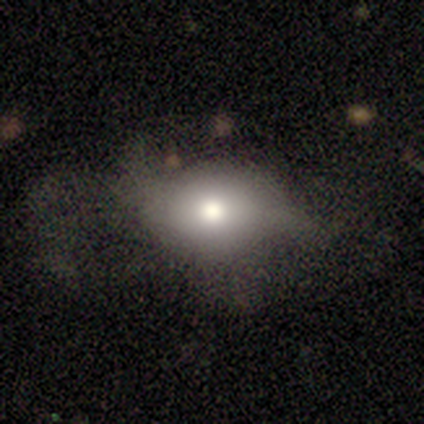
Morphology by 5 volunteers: smooth_or_featured: smooth (p=1.00)
how_rounded: round (p=0.60) [alt: in between p=0.40]
merging: none (p=0.80) [alt: major disturbance p=0.20]